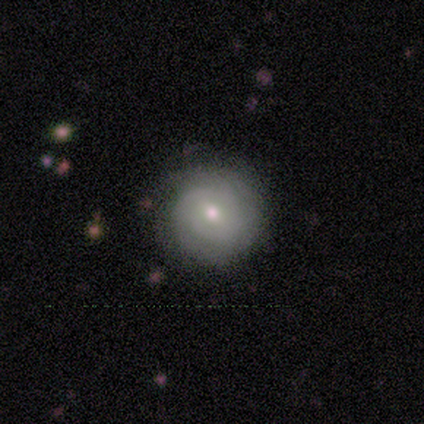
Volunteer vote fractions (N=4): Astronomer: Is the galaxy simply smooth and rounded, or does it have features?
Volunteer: smooth — 50%, tied with featured or disk at 50%.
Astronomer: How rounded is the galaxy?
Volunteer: round — 100%.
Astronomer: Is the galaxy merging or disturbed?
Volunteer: none — 100%.